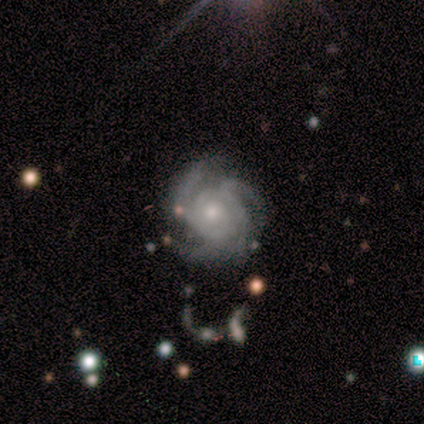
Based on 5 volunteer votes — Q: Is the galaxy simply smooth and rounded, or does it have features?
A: featured or disk — 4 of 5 (80%).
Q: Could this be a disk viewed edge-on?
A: no — 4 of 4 (100%).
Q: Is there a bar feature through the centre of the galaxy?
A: no — 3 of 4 (75%).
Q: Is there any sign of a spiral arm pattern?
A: yes — 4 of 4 (100%).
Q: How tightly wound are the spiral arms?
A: tight — 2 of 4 (50%).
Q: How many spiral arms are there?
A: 4 — 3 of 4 (75%).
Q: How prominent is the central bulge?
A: small — 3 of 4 (75%).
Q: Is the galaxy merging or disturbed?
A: none — 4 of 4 (100%).